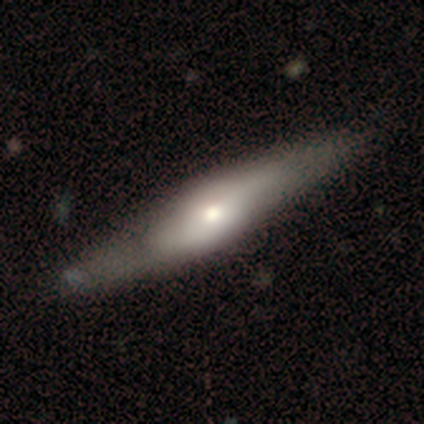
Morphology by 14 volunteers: Volunteers were most divided on "edge-on disk": yes: 73%, no: 27%. More confident: merging — none (86%); smooth or featured — featured or disk (79%); edge-on bulge — rounded (75%).